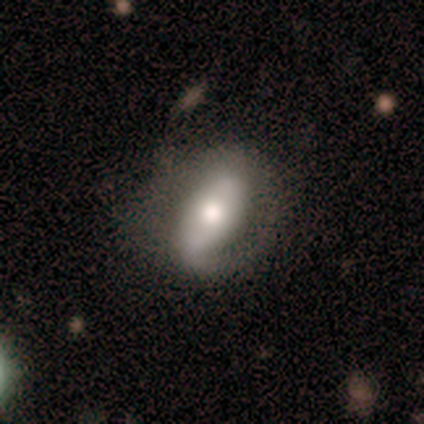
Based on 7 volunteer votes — Smooth or featured? featured or disk (86%)
Edge-on disk? no (100%)
Bar? strong (50%)
Spiral arms? yes (50%, tied with no)
Spiral winding? tight (33%, tied with medium and loose)
Spiral arm count? 1 (100%)
Bulge size? moderate (83%)
Merging? none (43%)